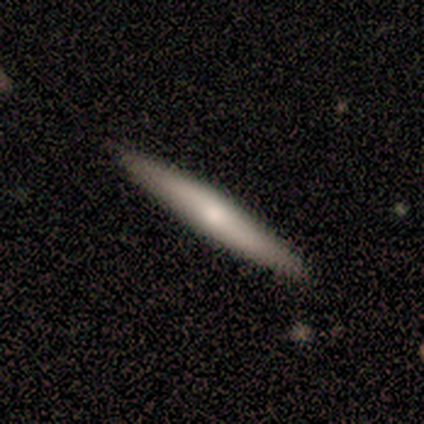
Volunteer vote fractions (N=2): A smooth galaxy with no disk features (50%, tied with featured or disk) that is cigar-shaped (100%). Merging: none (100%).